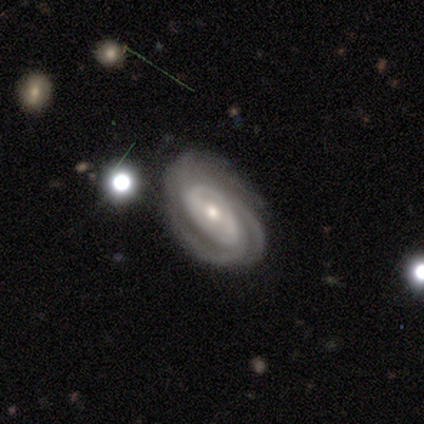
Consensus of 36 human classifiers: Q: Smooth or featured?
A: featured or disk (92%); runner-up: smooth (6%)
Q: Edge-on disk?
A: no (97%); runner-up: yes (3%)
Q: Bar?
A: weak (41%); runner-up: no (34%)
Q: Spiral arms?
A: yes (97%); runner-up: no (3%)
Q: Spiral winding?
A: tight (71%); runner-up: medium (29%)
Q: Spiral arm count?
A: 3 (52%); runner-up: 2 (26%)
Q: Bulge size?
A: moderate (62%); runner-up: small (28%)
Q: Merging?
A: none (83%); runner-up: minor disturbance (9%)